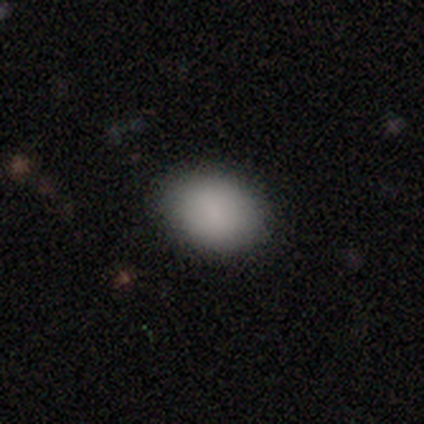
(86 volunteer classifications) A smooth galaxy with no disk features (90%) that is in between round and cigar-shaped (74%). Merging: none (88%).